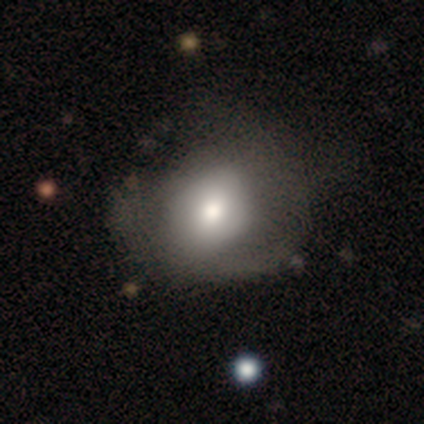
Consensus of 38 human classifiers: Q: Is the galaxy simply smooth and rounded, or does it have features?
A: smooth — 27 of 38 (71%).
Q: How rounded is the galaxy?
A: round — 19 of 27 (70%).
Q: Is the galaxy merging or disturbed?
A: none — 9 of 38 (24%, tied with major disturbance).